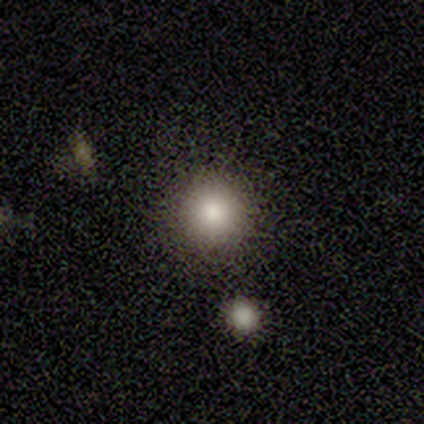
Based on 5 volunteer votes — Volunteers were most divided on "merging": none: 75%, minor disturbance: 25%, major disturbance: 0%, merger: 0%. More confident: how rounded — round (100%); smooth or featured — smooth (80%).